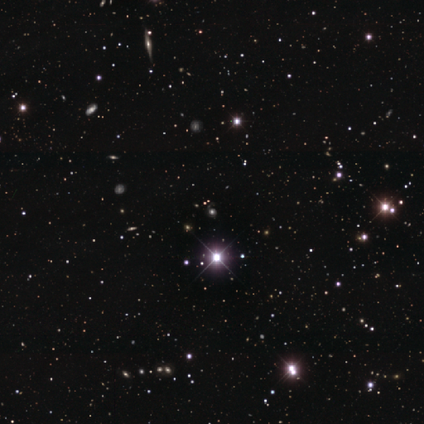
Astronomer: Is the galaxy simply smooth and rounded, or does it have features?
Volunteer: star or artifact — 75%.